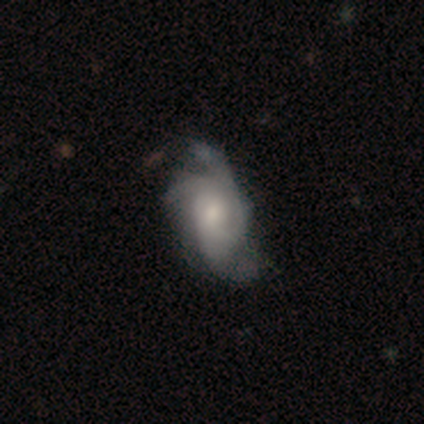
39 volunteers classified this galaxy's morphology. Smooth or featured: featured or disk — 85% (smooth — 10%)
Edge-on disk: no — 100%
Bar: no — 73% (weak — 24%)
Spiral arms: yes — 100%
Spiral winding: medium — 55% (tight — 24%)
Spiral arm count: 3 — 42% (tied with can't tell — 42%)
Bulge size: moderate — 48% (small — 36%)
Merging: minor disturbance — 30% (major disturbance — 27%)